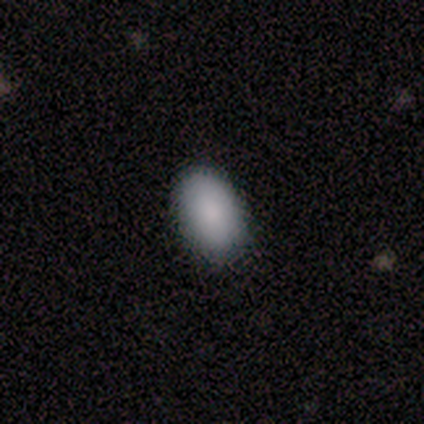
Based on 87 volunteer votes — Morphology: type=smooth (86%); roundness=in between (93%); merging=none (90%).